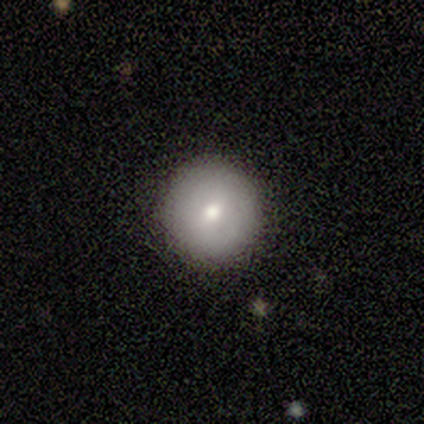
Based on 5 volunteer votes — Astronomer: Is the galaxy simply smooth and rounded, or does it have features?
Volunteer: smooth — 100%.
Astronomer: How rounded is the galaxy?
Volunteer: round — 100%.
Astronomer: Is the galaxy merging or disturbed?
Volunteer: none — 80%.